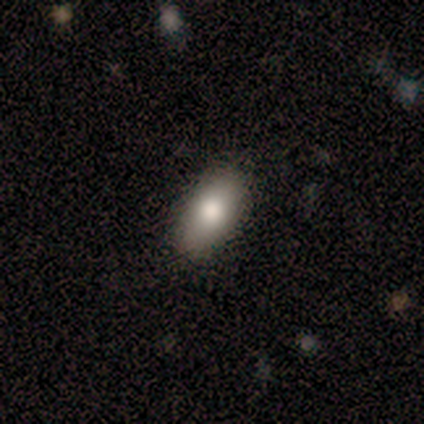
A smooth galaxy with no disk features (90%) that is in between round and cigar-shaped (89%). Merging: none (78%).